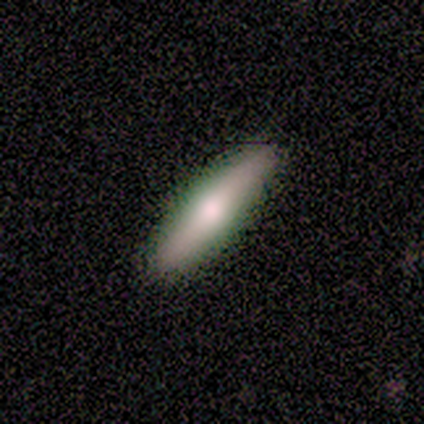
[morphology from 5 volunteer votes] smooth_or_featured: smooth (p=0.60) [alt: featured or disk p=0.40]
how_rounded: in between (p=0.67) [alt: cigar-shaped p=0.33]
merging: none (p=0.80) [alt: minor disturbance p=0.20]